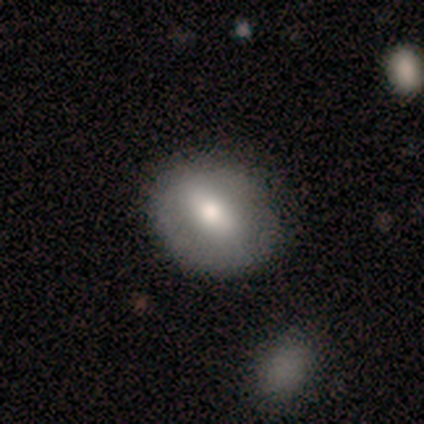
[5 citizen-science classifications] This is likely a smooth galaxy (60%). How rounded: likely round (67%). Merging: likely none (67%).